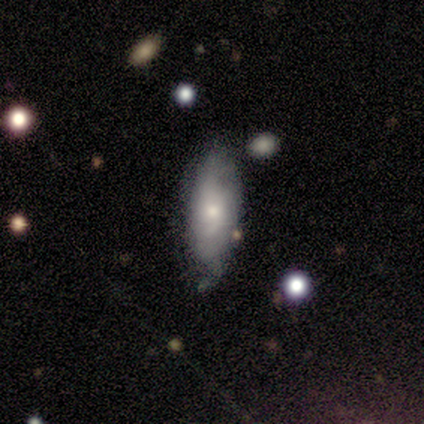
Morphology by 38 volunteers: smooth 66%, featured or disk 26%, star or artifact 8%. Down the decision tree: how rounded — in between (68%); merging — none (54%).